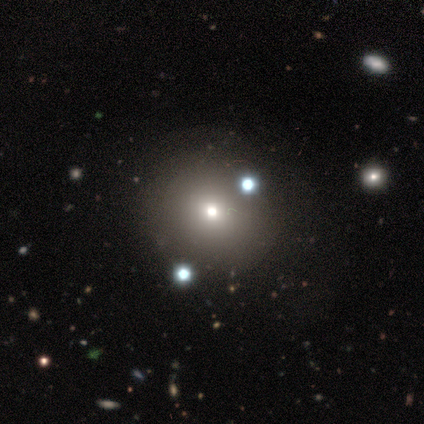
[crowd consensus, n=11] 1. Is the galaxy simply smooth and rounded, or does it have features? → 82% smooth, 18% star or artifact, 0% featured or disk.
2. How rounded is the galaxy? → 89% round, 11% in between, 0% cigar-shaped.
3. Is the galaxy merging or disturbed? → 78% none, 22% minor disturbance, 0% major disturbance, 0% merger.